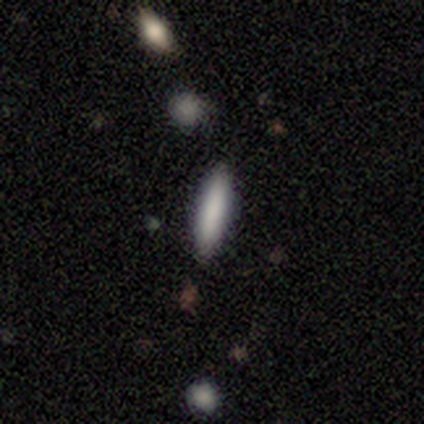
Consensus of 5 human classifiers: smooth_or_featured: smooth (p=1.00)
how_rounded: cigar-shaped (p=0.80) [alt: round p=0.20]
merging: none (p=1.00)